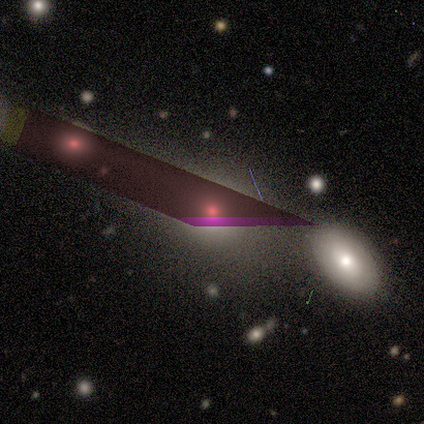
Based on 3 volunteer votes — Smooth or featured?
  - star or artifact: 67% *
  - smooth: 33%
  - featured or disk: 0%